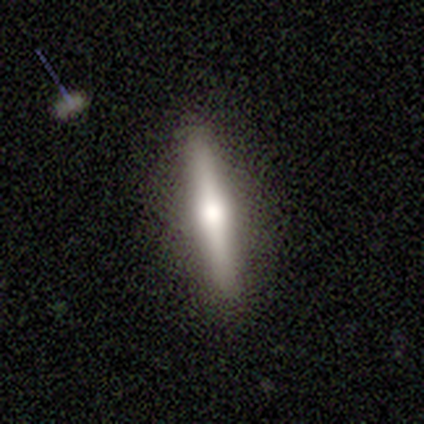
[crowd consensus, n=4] smooth 50% (tied), featured or disk 50% (tied), star or artifact 0%. Down the decision tree: how rounded — cigar-shaped (100%); merging — none (100%).